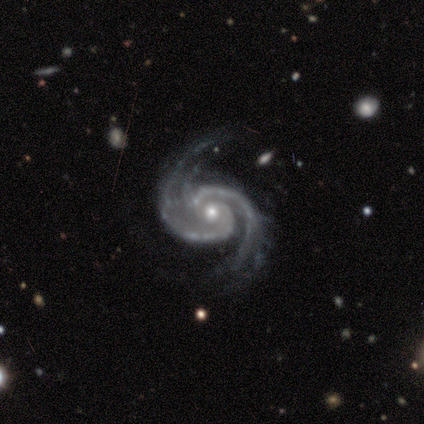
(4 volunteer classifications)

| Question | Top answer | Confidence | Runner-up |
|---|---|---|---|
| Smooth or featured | featured or disk | 100% | — |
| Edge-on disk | no | 100% | — |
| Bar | strong | 50% | tied: no (50%) |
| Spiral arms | yes | 100% | — |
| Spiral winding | medium | 75% | tight (25%) |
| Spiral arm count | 2 | 100% | — |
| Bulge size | moderate | 75% | small (25%) |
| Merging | none | 75% | minor disturbance (25%) |